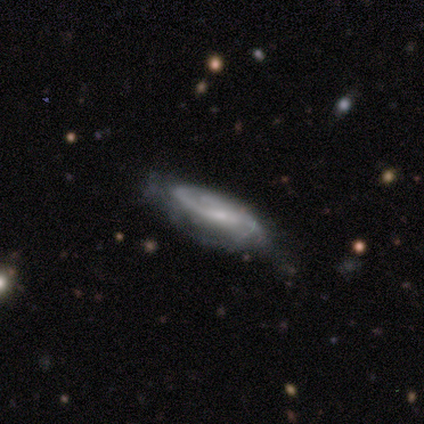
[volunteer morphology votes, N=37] This is likely a featured or disk galaxy (78%). It is clearly not viewed edge-on (83%). Bar: possibly weak (46%). Spiral arm pattern: clearly yes (92%). Spiral arm count: possibly 2 (45%). Spiral winding: possibly medium (50%). Central bulge: likely small (75%). Merging: possibly none (58%).